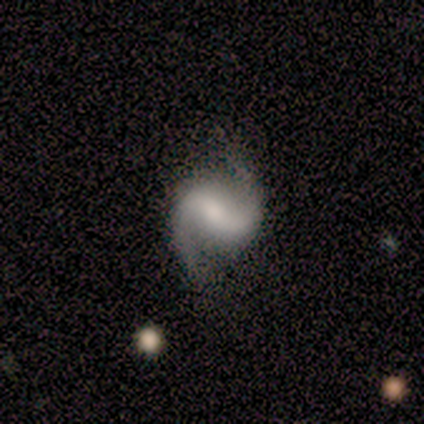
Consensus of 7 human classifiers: Morphology: type=featured or disk (100%); edge-on=no (100%); bar=strong (43%); spiral arms=yes (100%); winding=medium (57%); arm count=2 (100%); bulge=small (43%); merging=none (86%).